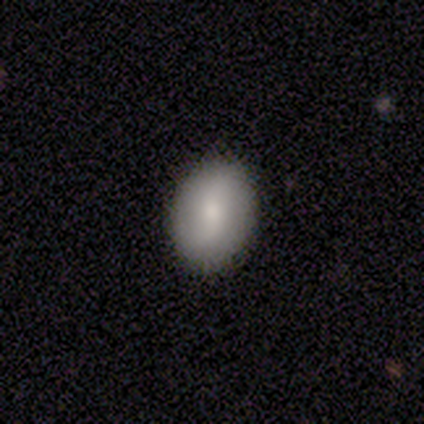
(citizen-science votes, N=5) Smooth or featured?
  - smooth: 60% *
  - featured or disk: 40%
  - star or artifact: 0%
How rounded?
  - in between: 67% *
  - round: 33%
  - cigar-shaped: 0%
Merging?
  - none: 100% *
  - minor disturbance: 0%
  - major disturbance: 0%
  - merger: 0%